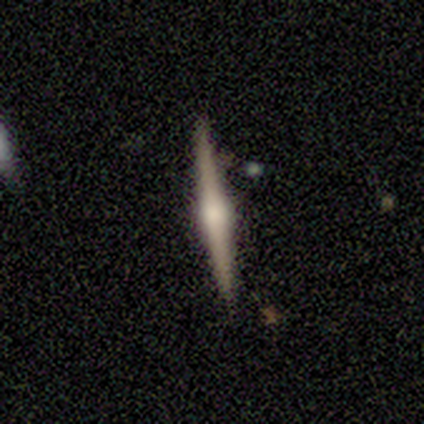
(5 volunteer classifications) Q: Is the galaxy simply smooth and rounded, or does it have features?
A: featured or disk — 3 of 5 (60%).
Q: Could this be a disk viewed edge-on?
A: yes — 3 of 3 (100%).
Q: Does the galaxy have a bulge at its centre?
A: rounded — 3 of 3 (100%).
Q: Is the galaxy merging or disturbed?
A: none — 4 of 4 (100%).